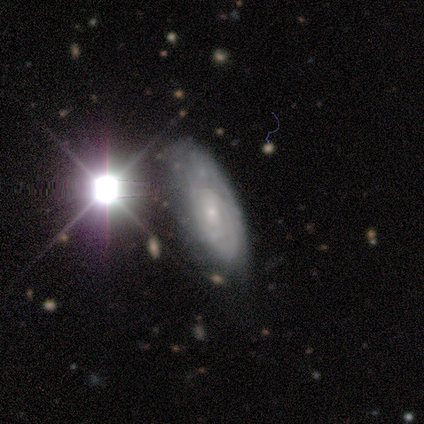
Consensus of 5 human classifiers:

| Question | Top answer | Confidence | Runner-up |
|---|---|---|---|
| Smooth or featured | featured or disk | 60% | smooth (20%) |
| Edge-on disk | no | 100% | — |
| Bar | weak | 67% | strong (33%) |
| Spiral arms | yes | 100% | — |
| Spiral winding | tight | 67% | medium (33%) |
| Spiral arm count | can't tell | 67% | 3 (33%) |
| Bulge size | small | 67% | moderate (33%) |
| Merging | none | 50% | tied: minor disturbance (50%) |